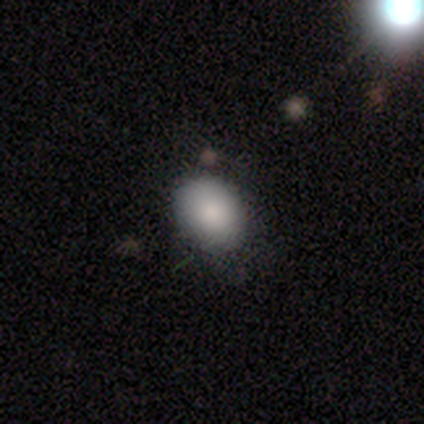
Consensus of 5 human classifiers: smooth_or_featured: smooth (p=0.80) [alt: star or artifact p=0.20]
how_rounded: round (p=0.50) [tied with: in between p=0.50]
merging: minor disturbance (p=0.50) [alt: none p=0.25]